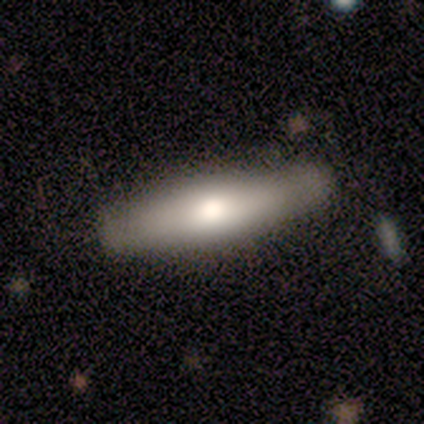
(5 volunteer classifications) Volunteers were most divided on "smooth or featured": featured or disk: 80%, smooth: 20%, star or artifact: 0%. More confident: edge-on disk — yes (100%); edge-on bulge — rounded (100%); merging — none (100%).